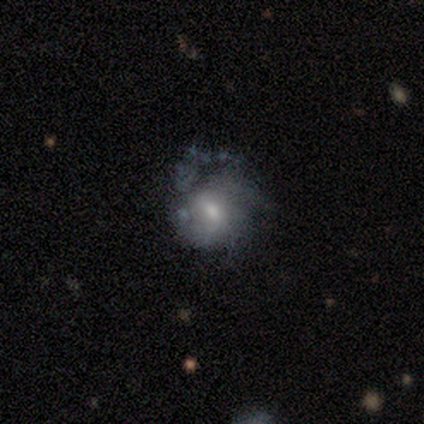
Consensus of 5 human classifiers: This appears to be a featured or disk galaxy (80%) with a weak bar (75%), 2 (50%, tied with 3) medium (50%, tied with loose) spiral arms (50%, tied with no) and a small central bulge (75%). Merging: none (60%).